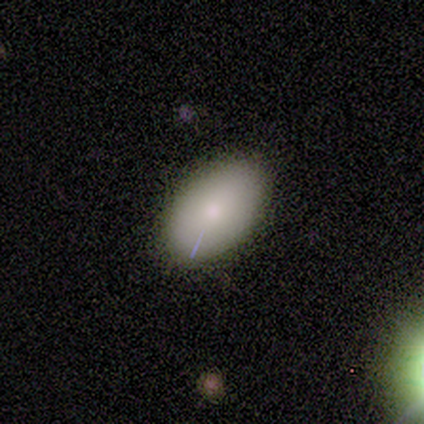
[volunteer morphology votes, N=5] smooth_or_featured: smooth (p=1.00)
how_rounded: in between (p=1.00)
merging: none (p=0.80) [alt: minor disturbance p=0.20]